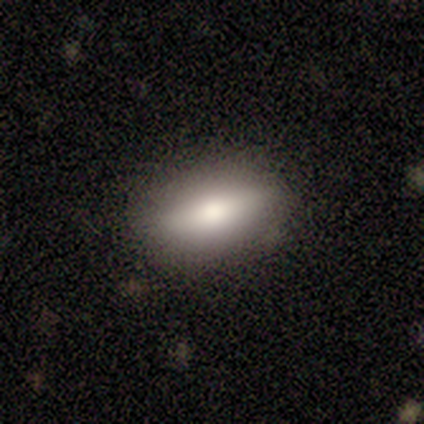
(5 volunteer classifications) smooth 80%, star or artifact 20%, featured or disk 0%. Down the decision tree: how rounded — in between (75%); merging — none (100%).